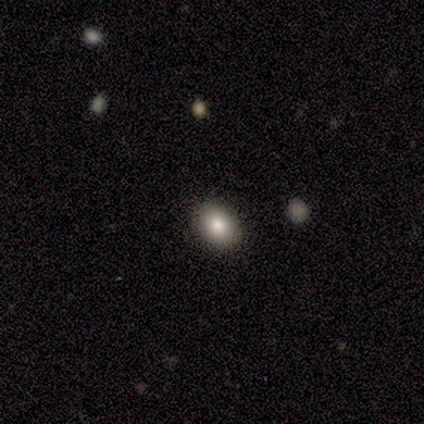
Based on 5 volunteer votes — Volunteers were most divided on "how rounded": in between: 75%, round: 25%, cigar-shaped: 0%. More confident: merging — none (100%); smooth or featured — smooth (80%).